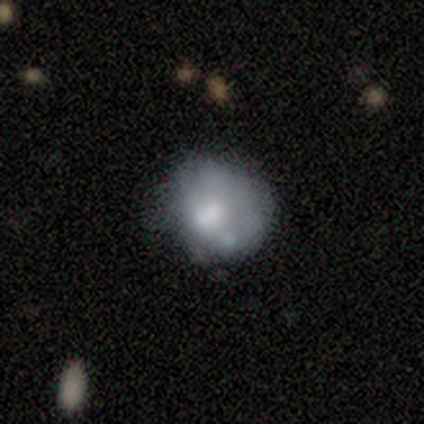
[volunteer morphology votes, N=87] smooth-or-featured: smooth: 52% | featured or disk: 38% | star or artifact: 10%
  how-rounded: round: 51% | in between: 47% | cigar-shaped: 2%
  merging: none: 45% | minor disturbance: 31% | major disturbance: 19% | merger: 5%